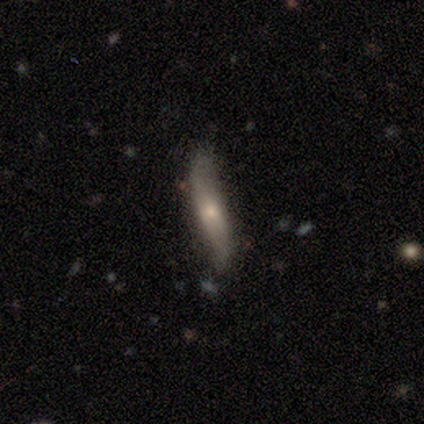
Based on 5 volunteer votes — Q: Smooth or featured?
A: featured or disk (60%); runner-up: smooth (20%)
Q: Edge-on disk?
A: no (67%); runner-up: yes (33%)
Q: Bar?
A: strong (50%); tied with: weak (50%)
Q: Spiral arms?
A: yes (100%)
Q: Spiral winding?
A: loose (100%)
Q: Spiral arm count?
A: 2 (100%)
Q: Bulge size?
A: moderate (50%); tied with: small (50%)
Q: Merging?
A: none (75%); runner-up: major disturbance (25%)